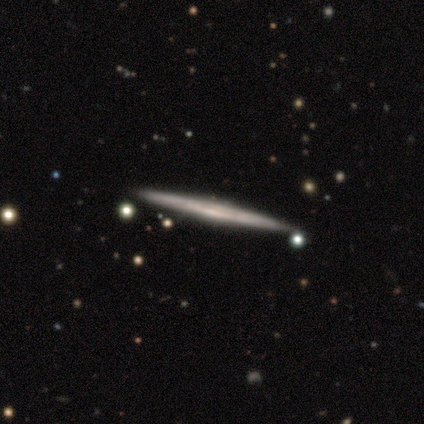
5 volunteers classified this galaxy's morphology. Smooth or featured? smooth (60%)
How rounded? cigar-shaped (100%)
Merging? none (100%)